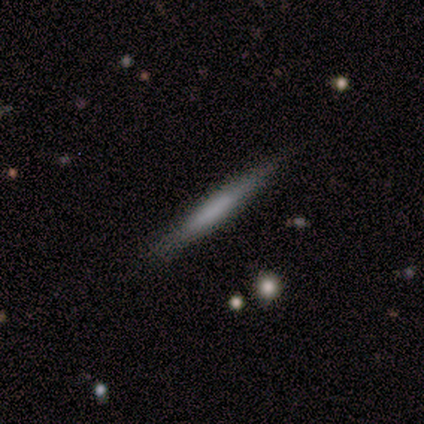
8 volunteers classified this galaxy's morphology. Smooth or featured? featured or disk (50%)
Edge-on disk? yes (75%)
Edge-on bulge? none (67%)
Merging? none (57%)